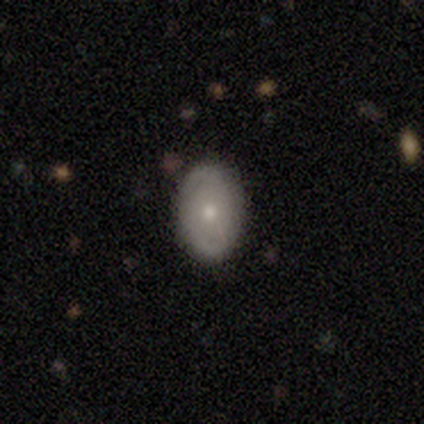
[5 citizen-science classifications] Smooth or featured? smooth (80%)
How rounded? in between (75%)
Merging? none (75%)